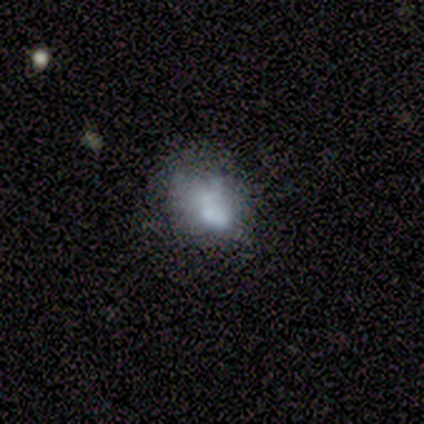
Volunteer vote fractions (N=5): Volunteers were most divided on "merging" (2-way tie): none: 50%, minor disturbance: 50%, major disturbance: 0%, merger: 0%. More confident: how rounded — round (67%); smooth or featured — smooth (60%).